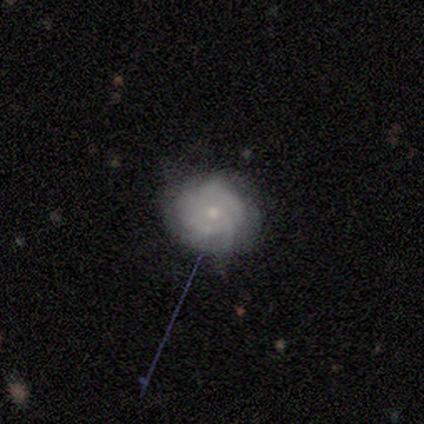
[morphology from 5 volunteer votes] This appears to be a featured or disk galaxy (40%, tied with star or artifact) with no bar (100%), no spiral arms (100%) and a moderate central bulge (50%, tied with small). Merging: none (67%).